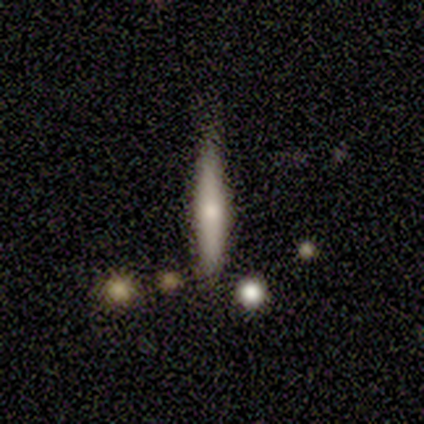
Smooth or featured? 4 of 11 (36%, tied with featured or disk) said smooth. How rounded? 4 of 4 (100%) said cigar-shaped. Merging? 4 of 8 (50%) said none.